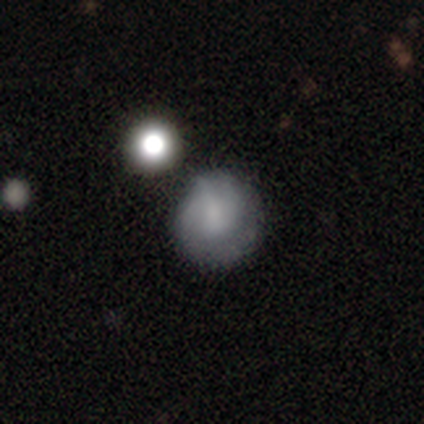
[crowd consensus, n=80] Q: Smooth or featured?
A: smooth (49%); runner-up: featured or disk (42%)
Q: How rounded?
A: round (90%); runner-up: in between (10%)
Q: Merging?
A: none (26%); runner-up: minor disturbance (21%)